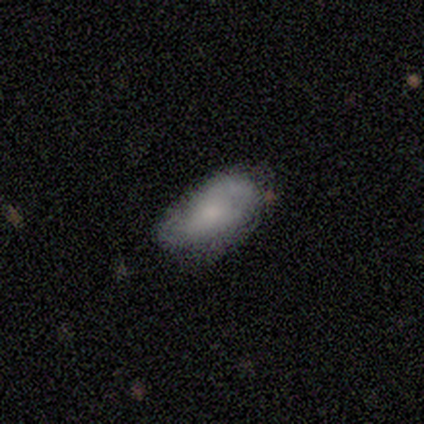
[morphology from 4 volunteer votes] Q: Smooth or featured?
A: smooth (75%); runner-up: featured or disk (25%)
Q: How rounded?
A: in between (100%)
Q: Merging?
A: none (50%); tied with: minor disturbance (50%)